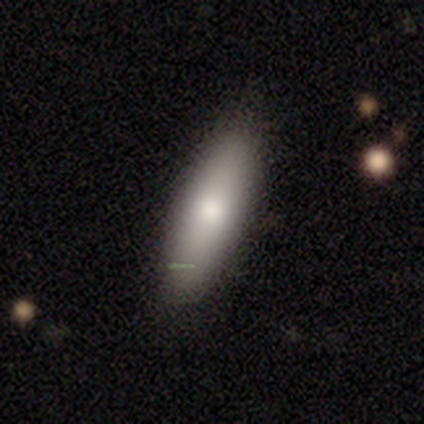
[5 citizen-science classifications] This appears to be a smooth galaxy with no disk features (40%, tied with star or artifact) that is cigar-shaped (100%). Merging: none (100%).